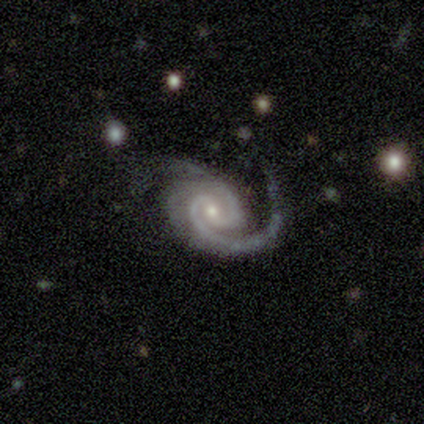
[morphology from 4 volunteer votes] This appears to be a featured or disk galaxy (100%) with no bar (75%), 2 (100%) tight (100%) spiral arms (100%) and a small central bulge (75%). Merging: none (50%).